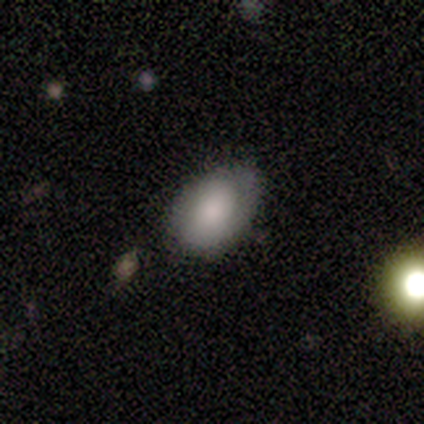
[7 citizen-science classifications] Smooth or featured? 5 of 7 (71%) said smooth. How rounded? 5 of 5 (100%) said in between. Merging? 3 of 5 (60%) said none.